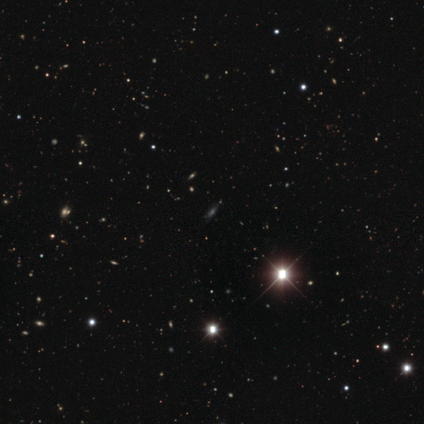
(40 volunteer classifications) star or artifact 70%, smooth 15%, featured or disk 15%.